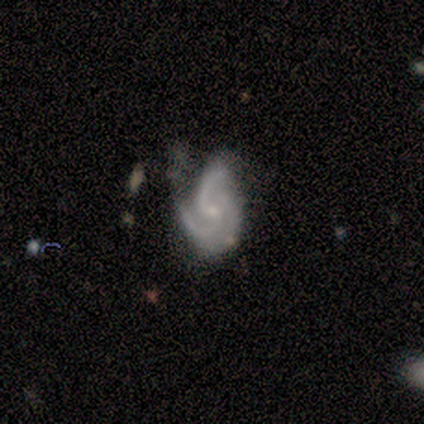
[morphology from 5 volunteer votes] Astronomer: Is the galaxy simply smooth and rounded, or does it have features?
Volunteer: featured or disk — 100%.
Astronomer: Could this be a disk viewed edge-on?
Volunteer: no — 100%.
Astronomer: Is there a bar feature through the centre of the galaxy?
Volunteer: no — 80%.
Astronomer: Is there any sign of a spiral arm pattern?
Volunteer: yes — 100%.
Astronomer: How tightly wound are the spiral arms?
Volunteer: medium — 80%.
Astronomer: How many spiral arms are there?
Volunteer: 3 — 80%.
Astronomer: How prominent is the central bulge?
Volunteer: small — 80%.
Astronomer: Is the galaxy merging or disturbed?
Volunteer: none — 40%, tied with minor disturbance at 40%.